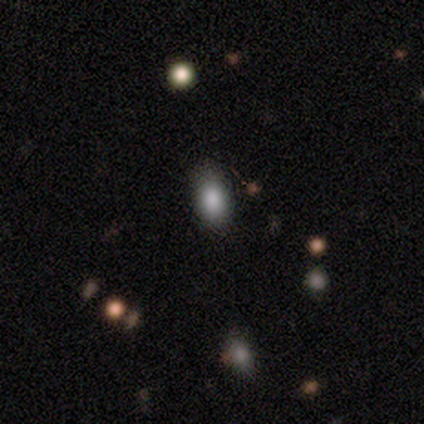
Q: Smooth or featured?
A: smooth (80%); runner-up: star or artifact (20%)
Q: How rounded?
A: in between (100%)
Q: Merging?
A: none (75%); runner-up: minor disturbance (25%)